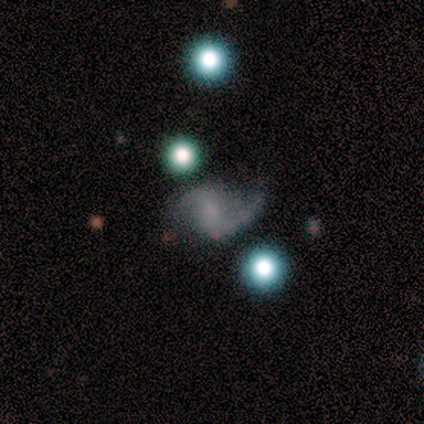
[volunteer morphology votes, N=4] Q: Smooth or featured?
A: featured or disk (75%); runner-up: star or artifact (25%)
Q: Edge-on disk?
A: no (67%); runner-up: yes (33%)
Q: Bar?
A: weak (50%); tied with: no (50%)
Q: Spiral arms?
A: yes (100%)
Q: Spiral winding?
A: loose (100%)
Q: Spiral arm count?
A: 2 (100%)
Q: Bulge size?
A: none (100%)
Q: Merging?
A: none (33%); tied with: minor disturbance (33%); major disturbance (33%)